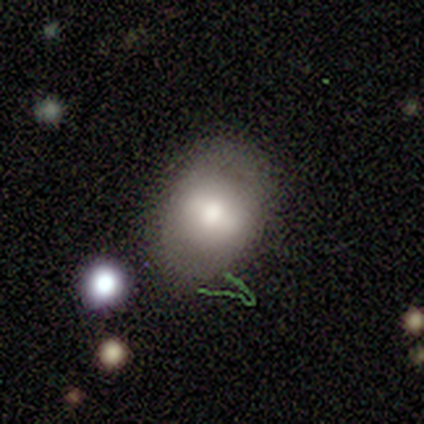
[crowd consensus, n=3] A smooth galaxy with no disk features (67%) that is round (50%, tied with in between). Merging: minor disturbance (67%).